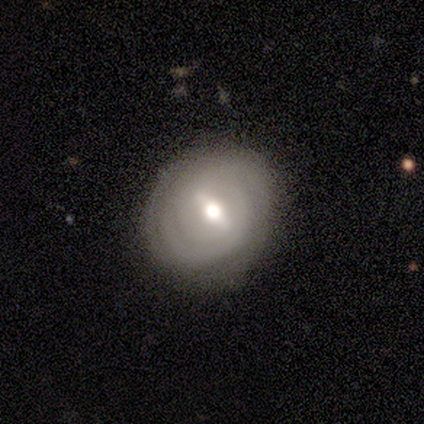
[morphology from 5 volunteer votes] A featured or disk galaxy (60%) with a weak bar (50%, tied with no), medium (100%) spiral arms (50%, tied with no) and a moderate central bulge (100%). Merging: none (100%).